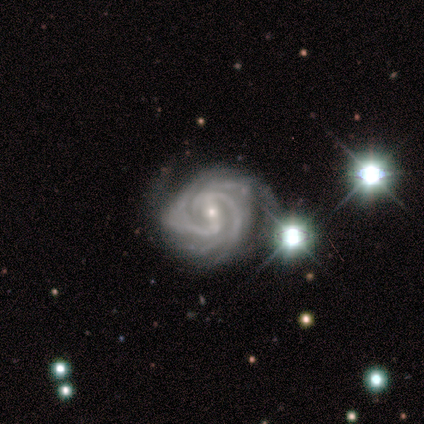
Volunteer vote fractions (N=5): Smooth or featured? featured or disk (100%)
Edge-on disk? no (80%)
Bar? weak (100%)
Spiral arms? yes (100%)
Spiral winding? tight (50%, tied with medium)
Spiral arm count? 2 (25%, tied with 4, more than 4 and can't tell)
Bulge size? small (75%)
Merging? none (60%)